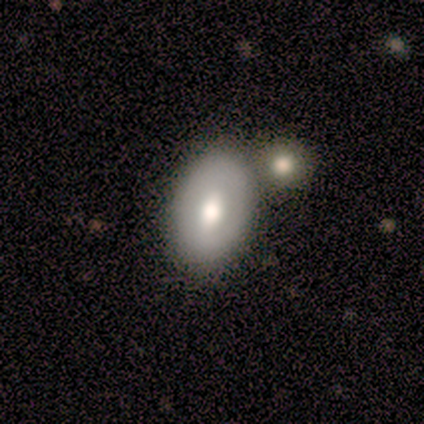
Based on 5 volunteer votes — Smooth or featured: smooth — 40% (tied with star or artifact — 40%)
How rounded: in between — 100%
Merging: none — 100%